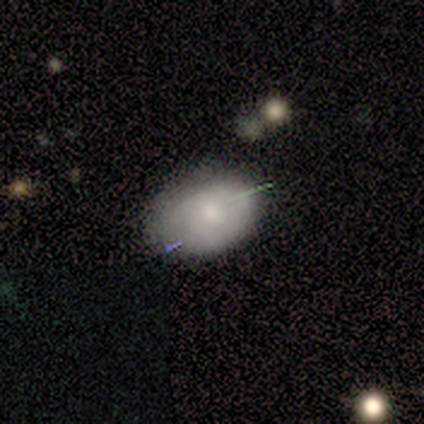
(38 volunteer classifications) This appears to be a smooth galaxy with no disk features (66%) that is in between round and cigar-shaped (76%). Merging: none (64%).